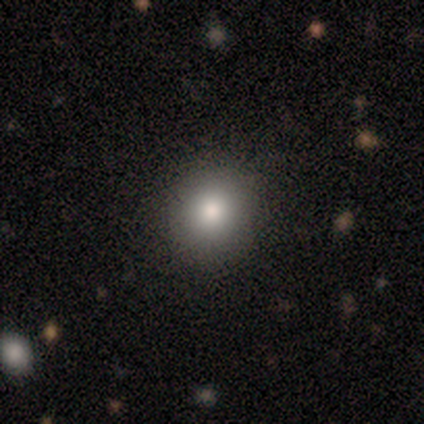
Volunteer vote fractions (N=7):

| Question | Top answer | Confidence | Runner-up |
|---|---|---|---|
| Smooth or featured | smooth | 71% | featured or disk (14%) |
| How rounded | round | 80% | in between (20%) |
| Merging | none | 83% | minor disturbance (17%) |